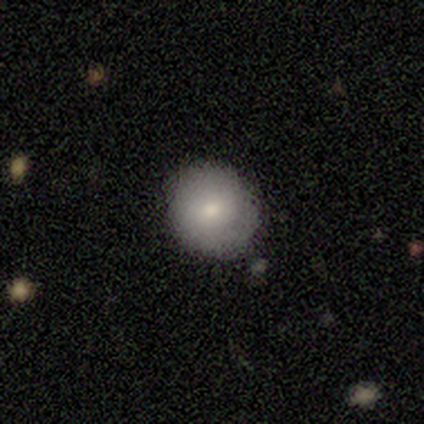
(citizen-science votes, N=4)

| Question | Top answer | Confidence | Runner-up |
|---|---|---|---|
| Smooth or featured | smooth | 100% | — |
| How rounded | round | 100% | — |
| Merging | none | 100% | — |